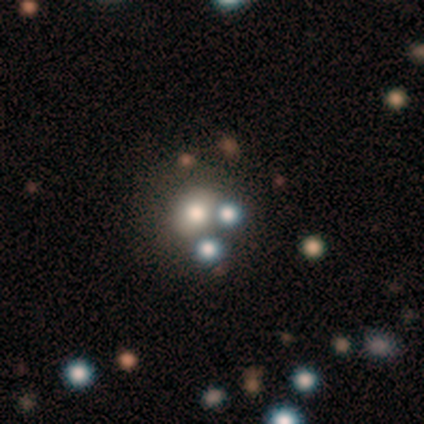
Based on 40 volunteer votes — smooth-or-featured: smooth: 62% | star or artifact: 20% | featured or disk: 18%
  how-rounded: round: 76% | in between: 24% | cigar-shaped: 0%
  merging: none: 62% | minor disturbance: 19% | merger: 16% | major disturbance: 3%